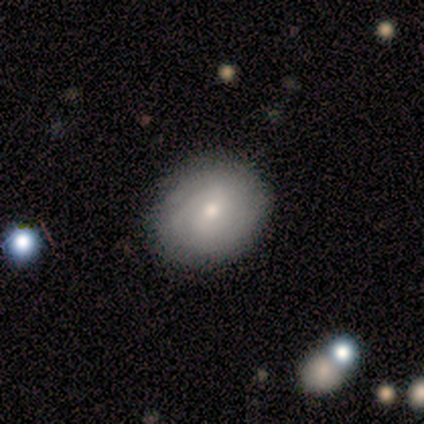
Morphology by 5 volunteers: Q: Smooth or featured?
A: smooth (60%); runner-up: featured or disk (40%)
Q: How rounded?
A: round (67%); runner-up: in between (33%)
Q: Merging?
A: none (100%)